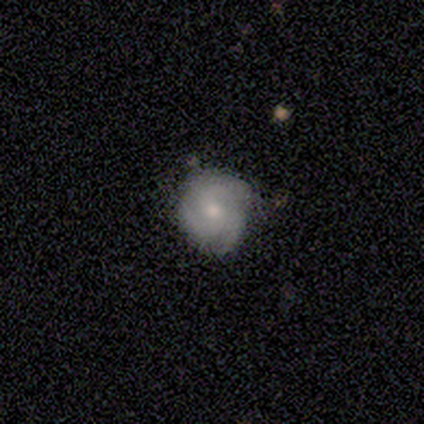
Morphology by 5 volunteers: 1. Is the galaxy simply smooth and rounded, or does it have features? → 80% featured or disk, 20% smooth, 0% star or artifact.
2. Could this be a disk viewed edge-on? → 100% no, 0% yes.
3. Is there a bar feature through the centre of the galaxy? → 100% no, 0% strong, 0% weak.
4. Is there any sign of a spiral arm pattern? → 75% yes, 25% no.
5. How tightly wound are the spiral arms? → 67% medium, 33% tight, 0% loose.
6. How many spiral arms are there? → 67% 3, 33% 4, 0% 1, 0% 2, 0% more than 4, 0% can't tell.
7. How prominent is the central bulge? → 75% small, 25% moderate, 0% dominant, 0% large, 0% none.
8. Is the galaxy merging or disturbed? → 80% none, 20% minor disturbance, 0% major disturbance, 0% merger.